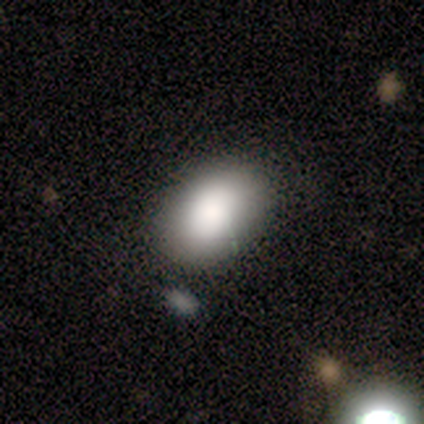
Q: Smooth or featured?
A: smooth (60%); runner-up: star or artifact (40%)
Q: How rounded?
A: in between (100%)
Q: Merging?
A: none (67%); runner-up: minor disturbance (33%)